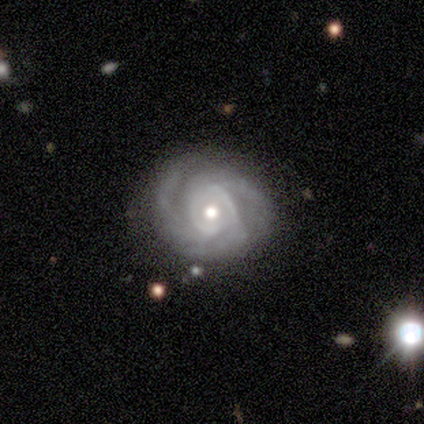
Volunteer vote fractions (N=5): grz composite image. It shows a featured or disk galaxy (100%) with a weak bar (60%), 3 (60%) medium (60%) spiral arms (100%) and a moderate central bulge (60%). Merging: none (80%).